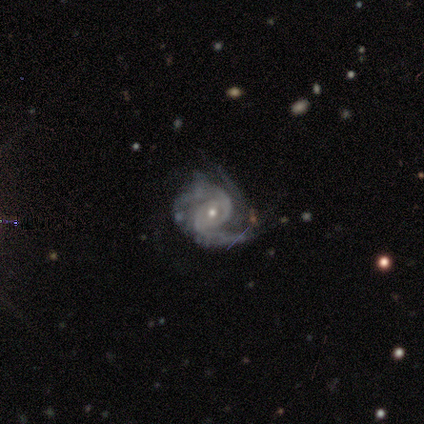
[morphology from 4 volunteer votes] Smooth or featured? featured or disk (100%)
Edge-on disk? no (100%)
Bar? no (50%)
Spiral arms? yes (100%)
Spiral winding? medium (75%)
Spiral arm count? 2 (75%)
Bulge size? large (25%, tied with moderate, small and none)
Merging? none (75%)